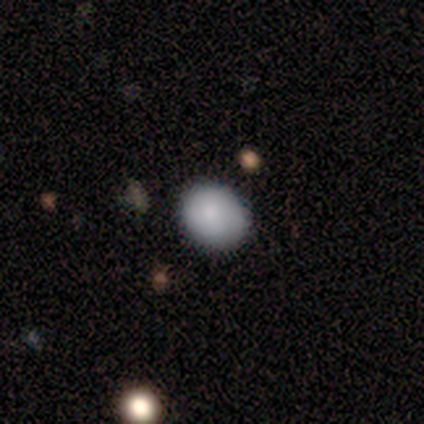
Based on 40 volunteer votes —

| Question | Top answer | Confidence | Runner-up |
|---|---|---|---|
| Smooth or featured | smooth | 90% | featured or disk (5%) |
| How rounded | in between | 53% | round (47%) |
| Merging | none | 76% | minor disturbance (18%) |